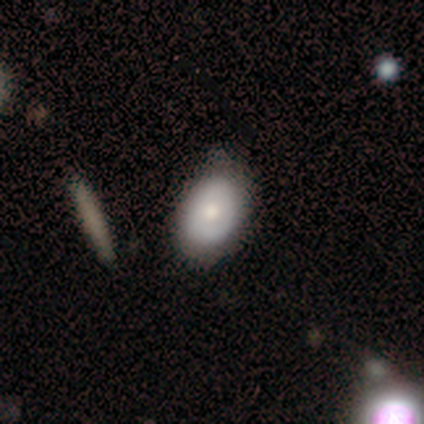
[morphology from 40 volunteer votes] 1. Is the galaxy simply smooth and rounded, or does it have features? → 72% smooth, 28% featured or disk, 0% star or artifact.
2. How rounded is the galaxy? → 83% in between, 10% round, 7% cigar-shaped.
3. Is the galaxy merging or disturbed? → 62% none, 32% minor disturbance, 2% major disturbance, 2% merger.